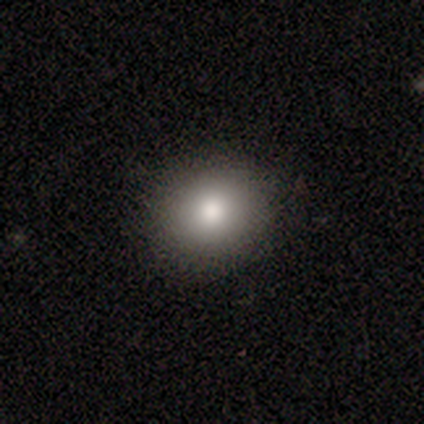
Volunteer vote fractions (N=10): Volunteers were most divided on "smooth or featured": smooth: 80%, featured or disk: 10%, star or artifact: 10%. More confident: merging — none (89%); how rounded — round (88%).